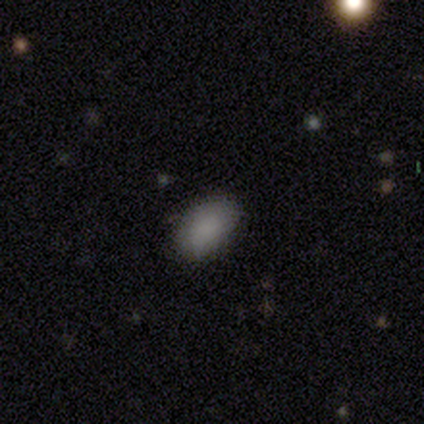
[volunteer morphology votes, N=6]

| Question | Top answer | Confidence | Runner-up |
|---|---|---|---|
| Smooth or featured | smooth | 83% | star or artifact (17%) |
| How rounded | in between | 100% | — |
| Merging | none | 80% | minor disturbance (20%) |